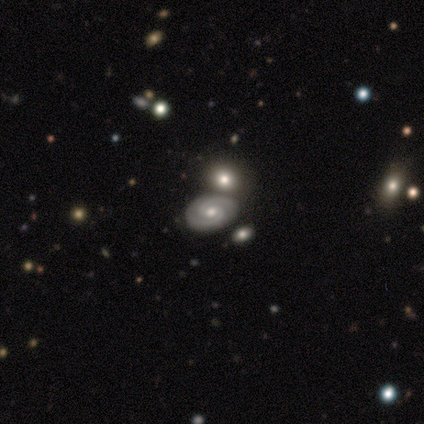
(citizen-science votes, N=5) Overall: featured or disk (80%). Edge-on disk: no (100%). Bar: no (50%; strong 25%). Spiral arms: yes (75%). Spiral arm count: 2 (100%). Spiral winding: medium (67%; tight 33%). Bulge size: moderate (75%). Merging: none (60%; minor disturbance 20%).